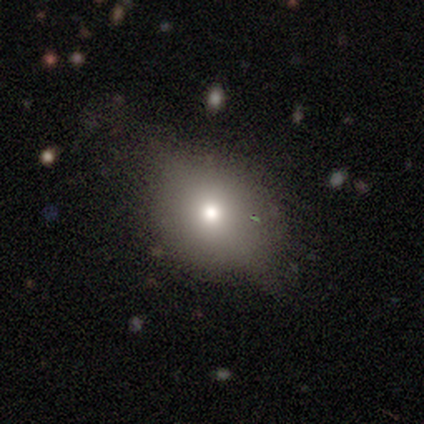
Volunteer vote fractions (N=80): smooth_or_featured: smooth (p=0.64) [alt: featured or disk p=0.19]
how_rounded: round (p=0.67) [alt: in between p=0.29]
merging: none (p=0.36) [alt: minor disturbance p=0.21]